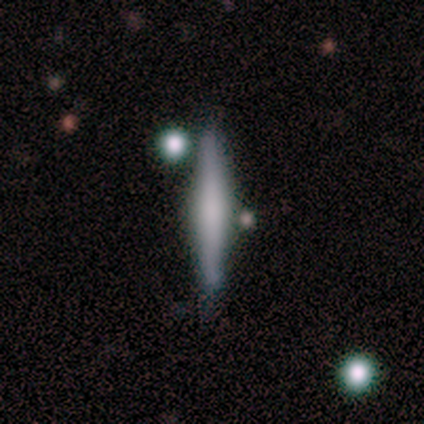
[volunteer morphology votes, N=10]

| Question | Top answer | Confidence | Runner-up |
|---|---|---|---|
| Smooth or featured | featured or disk | 60% | smooth (40%) |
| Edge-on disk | yes | 100% | — |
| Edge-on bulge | none | 50% | tied: rounded (50%) |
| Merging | none | 70% | minor disturbance (10%) |